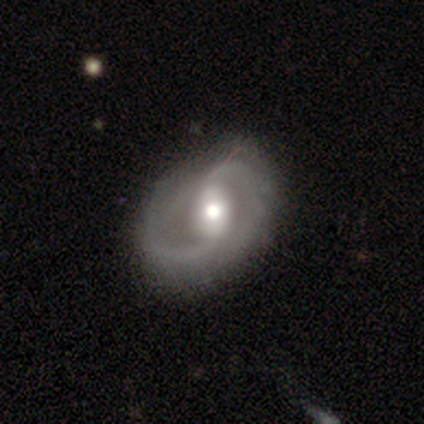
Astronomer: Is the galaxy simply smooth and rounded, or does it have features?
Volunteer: featured or disk — 83%.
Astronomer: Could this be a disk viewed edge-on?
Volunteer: no — 100%.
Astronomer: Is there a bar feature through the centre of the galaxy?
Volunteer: weak — 39% (runner-up: strong, 32%).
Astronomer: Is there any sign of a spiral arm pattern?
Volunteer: yes — 88%.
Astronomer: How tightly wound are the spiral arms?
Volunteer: medium — 46% (runner-up: loose, 32%).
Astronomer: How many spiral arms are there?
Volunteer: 2 — 80%.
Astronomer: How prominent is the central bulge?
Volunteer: moderate — 76%.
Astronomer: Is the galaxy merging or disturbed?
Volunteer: none — 61%.